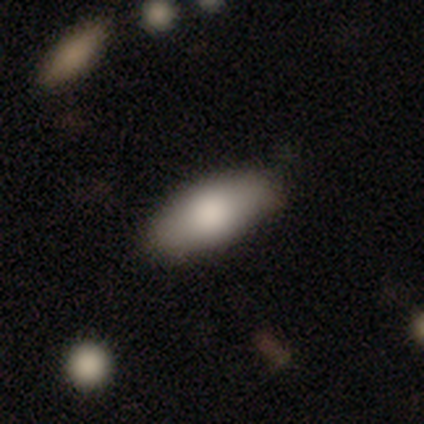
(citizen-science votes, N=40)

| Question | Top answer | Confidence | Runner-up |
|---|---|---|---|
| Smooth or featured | smooth | 70% | featured or disk (18%) |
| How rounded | in between | 86% | cigar-shaped (14%) |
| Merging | none | 86% | minor disturbance (14%) |